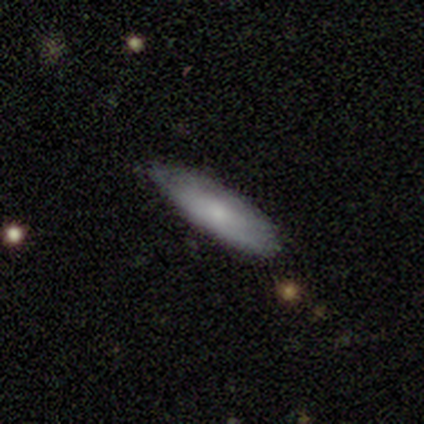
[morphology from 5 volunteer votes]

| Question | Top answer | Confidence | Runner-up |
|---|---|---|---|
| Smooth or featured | smooth | 60% | featured or disk (20%) |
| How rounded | cigar-shaped | 67% | in between (33%) |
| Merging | none | 50% | tied: minor disturbance (50%) |